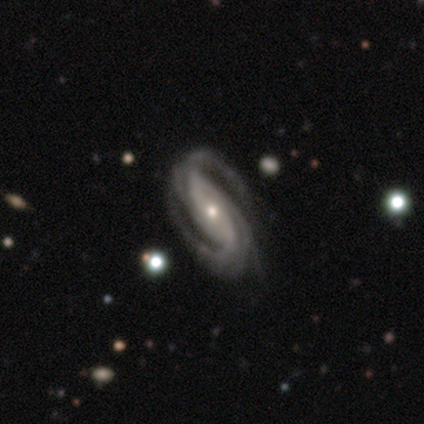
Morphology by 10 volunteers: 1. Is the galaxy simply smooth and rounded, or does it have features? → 100% featured or disk, 0% smooth, 0% star or artifact.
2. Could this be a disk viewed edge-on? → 100% no, 0% yes.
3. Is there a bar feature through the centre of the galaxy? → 50% no, 40% strong, 10% weak.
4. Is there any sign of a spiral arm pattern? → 100% yes, 0% no.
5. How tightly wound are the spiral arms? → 60% medium, 30% loose, 10% tight.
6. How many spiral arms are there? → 90% 2, 10% 4, 0% 1, 0% 3, 0% more than 4, 0% can't tell.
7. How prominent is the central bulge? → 50% moderate (tied), 50% small (tied), 0% dominant, 0% large, 0% none.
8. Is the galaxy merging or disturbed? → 50% none (tied), 50% minor disturbance (tied), 0% major disturbance, 0% merger.